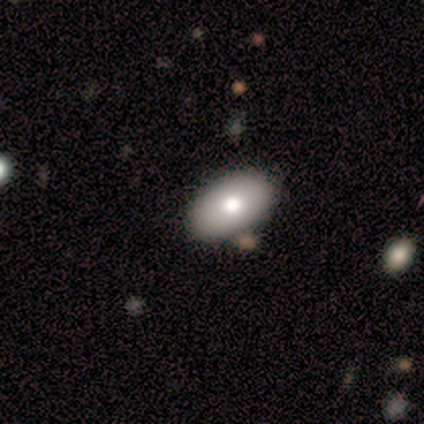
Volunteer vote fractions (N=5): smooth-or-featured: smooth: 60% | featured or disk: 20% | star or artifact: 20%
  how-rounded: in between: 100% | round: 0% | cigar-shaped: 0%
  merging: none: 75% | minor disturbance: 25% | major disturbance: 0% | merger: 0%